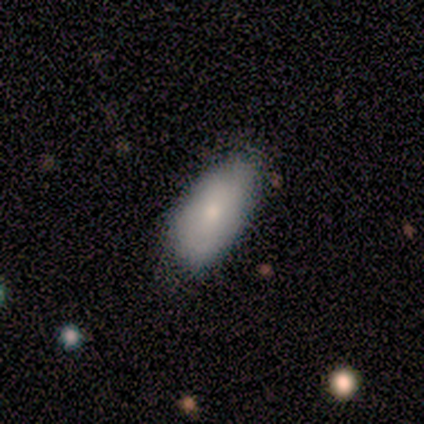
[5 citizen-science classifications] Smooth or featured? smooth (100%)
How rounded? in between (100%)
Merging? minor disturbance (60%)